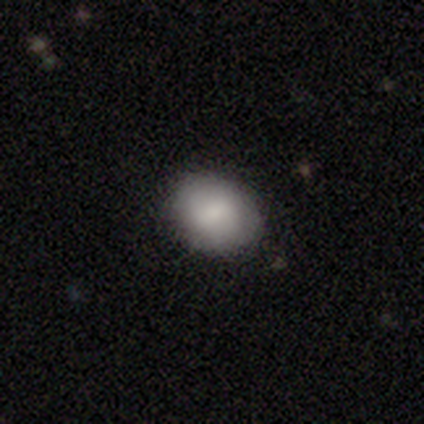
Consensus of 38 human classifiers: Overall: smooth (95%). How rounded: round (56%; in between 39%). Merging: none (84%).